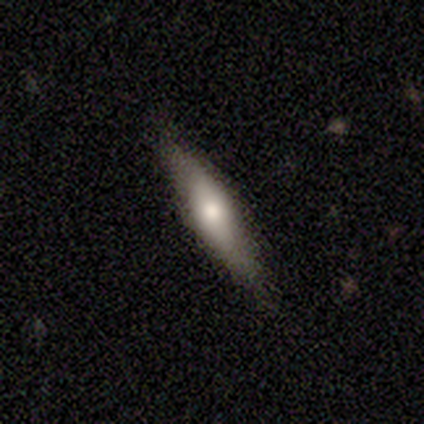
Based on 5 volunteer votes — A smooth galaxy with no disk features (80%) that is cigar-shaped (75%). Merging: minor disturbance (60%).